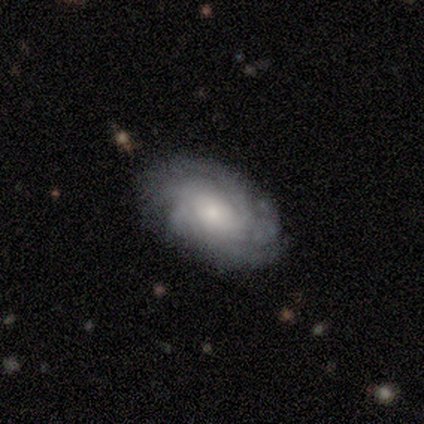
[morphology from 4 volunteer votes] A featured or disk galaxy (100%) with no bar (75%), 4 (50%) tight (50%, tied with medium) spiral arms (100%) and a moderate central bulge (75%). Merging: none (75%).